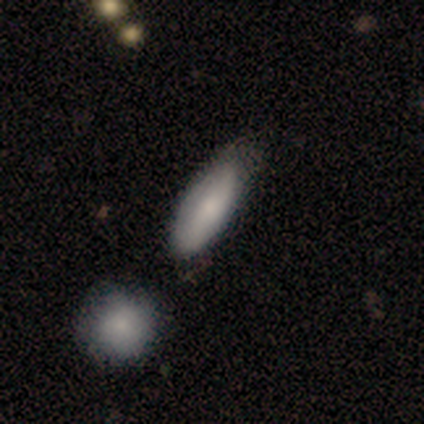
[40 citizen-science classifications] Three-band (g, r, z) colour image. It shows a smooth galaxy with no disk features (78%) that is in between round and cigar-shaped (65%). Merging: none (54%).